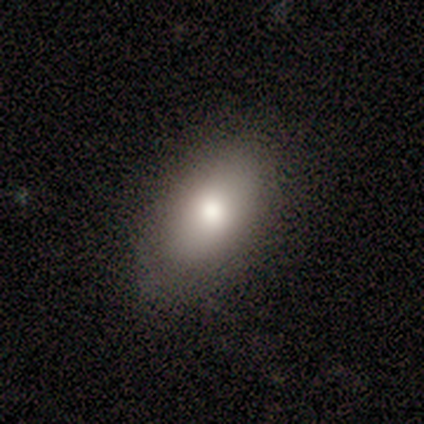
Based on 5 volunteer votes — Smooth or featured: smooth — 80% (featured or disk — 20%)
How rounded: in between — 100%
Merging: none — 80% (minor disturbance — 20%)